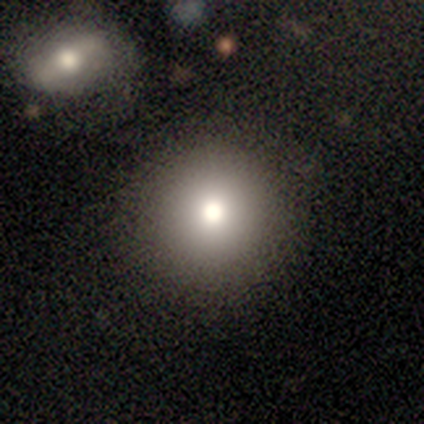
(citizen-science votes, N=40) A smooth galaxy with no disk features (80%) that is round (94%). Merging: none (91%).